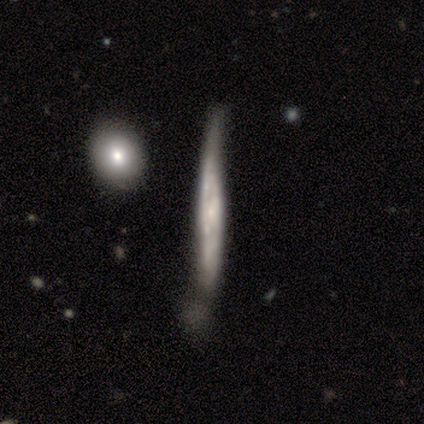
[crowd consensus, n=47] featured or disk 74%, smooth 21%, star or artifact 4%. Down the decision tree: edge-on disk — yes (74%); edge-on bulge — none (69%); merging — minor disturbance (53%).